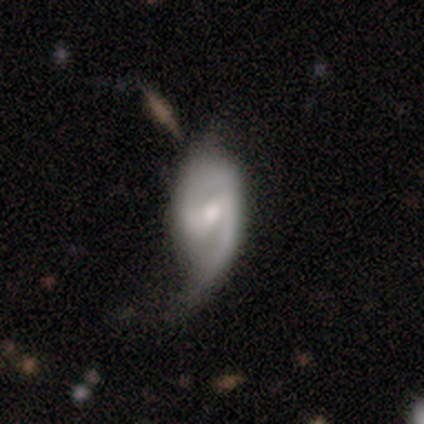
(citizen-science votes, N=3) Morphology: type=featured or disk (67%); edge-on=no (100%); bar=weak (50%, tied with no); spiral arms=yes (100%); winding=medium (50%, tied with loose); arm count=can't tell (100%); bulge=moderate (100%); merging=none (33%, tied with minor disturbance and major disturbance).